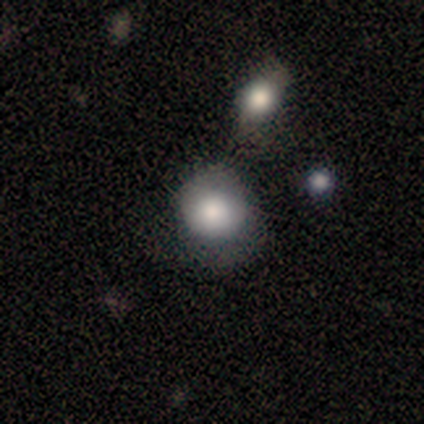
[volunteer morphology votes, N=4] Smooth or featured?
  - smooth: 50% *
  - featured or disk: 25%
  - star or artifact: 25%
How rounded?
  - round: 100% *
  - in between: 0%
  - cigar-shaped: 0%
Merging?
  - merger: 67% *
  - none: 33%
  - minor disturbance: 0%
  - major disturbance: 0%